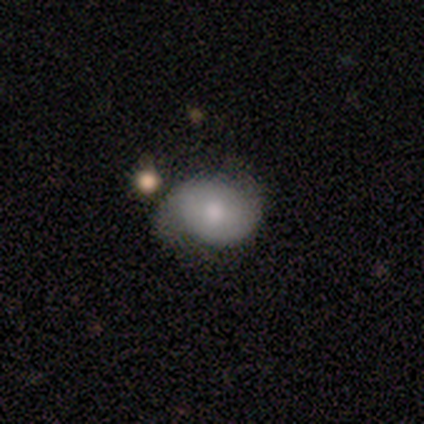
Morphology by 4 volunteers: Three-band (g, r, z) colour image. It shows a smooth galaxy with no disk features (75%) that is round (67%). Merging: none (50%).